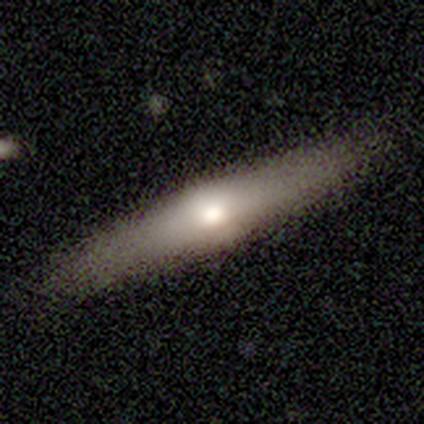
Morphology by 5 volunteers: Smooth or featured? smooth (40%, tied with featured or disk)
How rounded? cigar-shaped (100%)
Merging? none (100%)